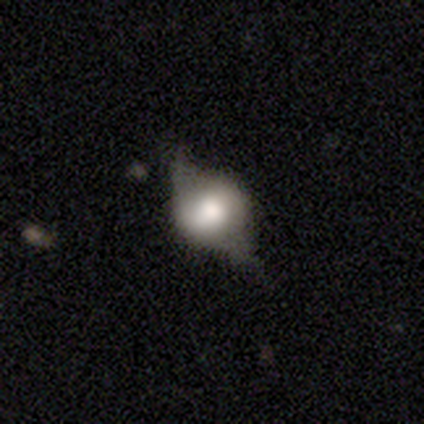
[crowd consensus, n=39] Smooth or featured? 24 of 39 (62%) said featured or disk. Edge-on disk? 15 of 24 (62%) said no. Bar? 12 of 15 (80%) said no. Spiral arms? 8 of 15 (53%) said no. Bulge size? 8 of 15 (53%) said large. Merging? 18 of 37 (49%) said none.